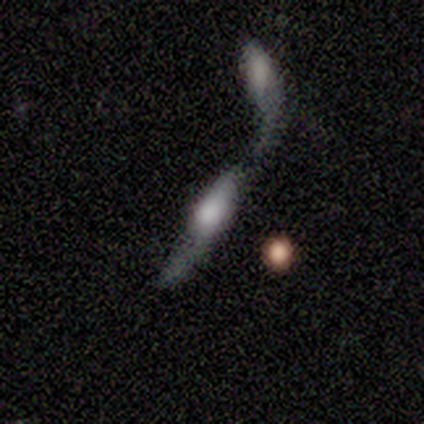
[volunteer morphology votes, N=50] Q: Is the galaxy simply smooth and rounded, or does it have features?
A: smooth — 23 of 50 (46%, tied with featured or disk).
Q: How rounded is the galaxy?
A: cigar-shaped — 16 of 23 (70%).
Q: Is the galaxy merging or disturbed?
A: merger — 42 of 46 (91%).